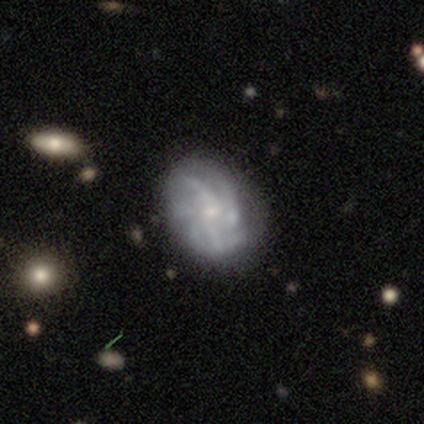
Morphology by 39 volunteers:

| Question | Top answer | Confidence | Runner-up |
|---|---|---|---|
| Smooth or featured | featured or disk | 77% | smooth (13%) |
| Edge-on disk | no | 100% | — |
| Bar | no | 73% | weak (23%) |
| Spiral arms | yes | 90% | no (10%) |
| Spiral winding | tight | 44% | loose (30%) |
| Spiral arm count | more than 4 | 33% | tied: can't tell (33%) |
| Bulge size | small | 60% | moderate (20%) |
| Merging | none | 66% | minor disturbance (23%) |